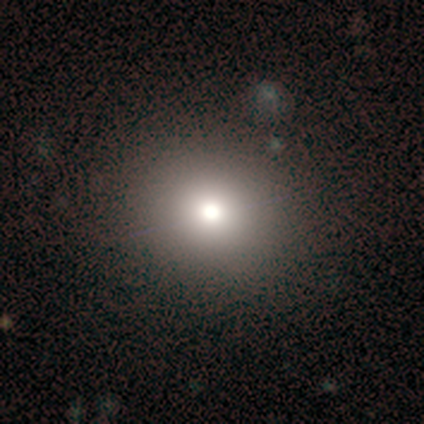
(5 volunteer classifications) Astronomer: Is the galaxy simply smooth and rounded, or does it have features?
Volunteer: smooth — 80%.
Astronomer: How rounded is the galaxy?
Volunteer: round — 100%.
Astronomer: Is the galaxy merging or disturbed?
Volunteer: none — 100%.